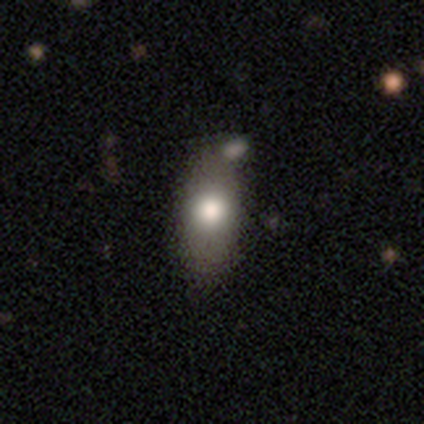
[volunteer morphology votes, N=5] This is likely a smooth galaxy (60%). How rounded: clearly in between (100%). Merging: clearly none (80%).